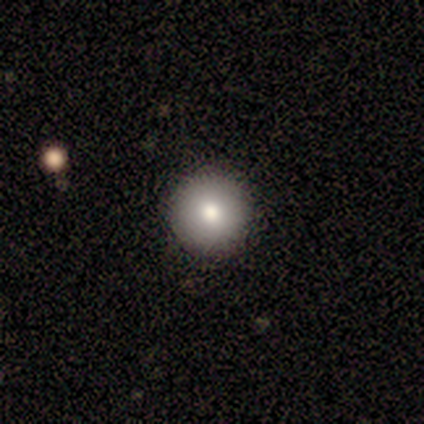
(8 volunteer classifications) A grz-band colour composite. It shows a smooth galaxy with no disk features (75%) that is round (100%). Merging: none (83%).